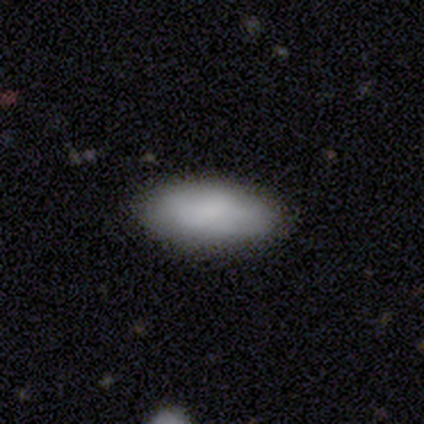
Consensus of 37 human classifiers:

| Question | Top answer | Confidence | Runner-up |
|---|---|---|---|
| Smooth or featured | smooth | 95% | featured or disk (3%) |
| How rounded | in between | 94% | cigar-shaped (6%) |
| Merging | none | 86% | minor disturbance (11%) |